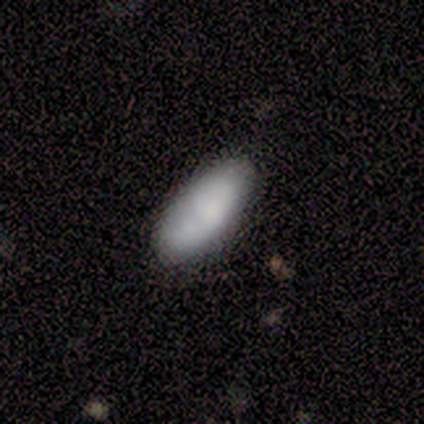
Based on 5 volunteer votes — Overall: smooth (80%). How rounded: in between (100%). Merging: none (60%; minor disturbance 40%).